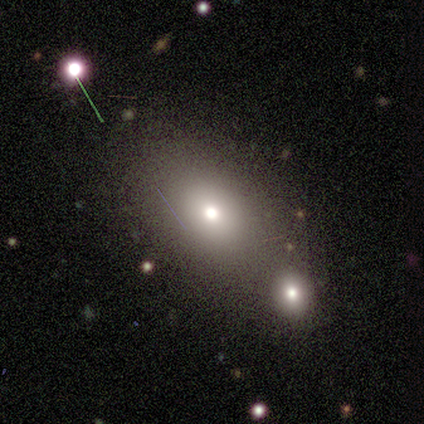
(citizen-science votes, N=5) Smooth or featured: star or artifact — 60% (smooth — 40%)